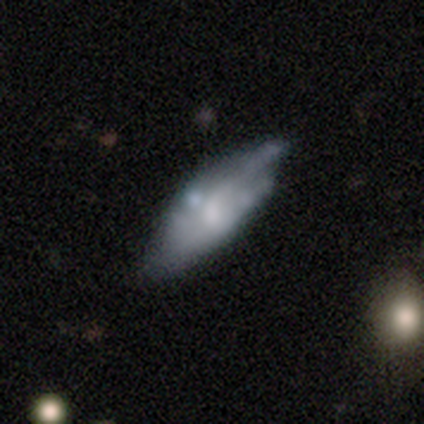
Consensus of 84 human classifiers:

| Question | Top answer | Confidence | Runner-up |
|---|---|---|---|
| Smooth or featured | featured or disk | 50% | smooth (44%) |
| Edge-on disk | no | 71% | yes (29%) |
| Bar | no | 70% | weak (20%) |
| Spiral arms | no | 63% | yes (37%) |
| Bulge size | moderate | 40% | tied: small (40%) |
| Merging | none | 48% | minor disturbance (29%) |